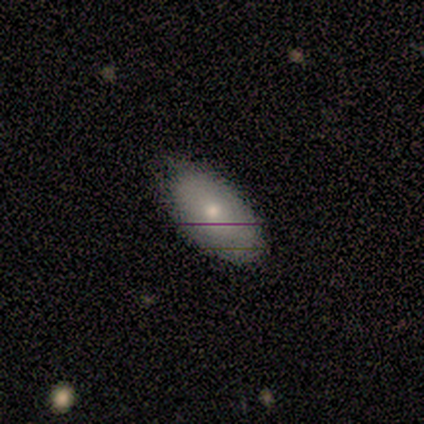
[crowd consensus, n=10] A smooth galaxy with no disk features (100%) that is in between round and cigar-shaped (100%).

Vote fractions:
- Smooth or featured? smooth: 100% / featured or disk: 0% / star or artifact: 0%
- How rounded? in between: 100% / round: 0% / cigar-shaped: 0%
- Merging? none: 70% / minor disturbance: 30% / major disturbance: 0% / merger: 0%